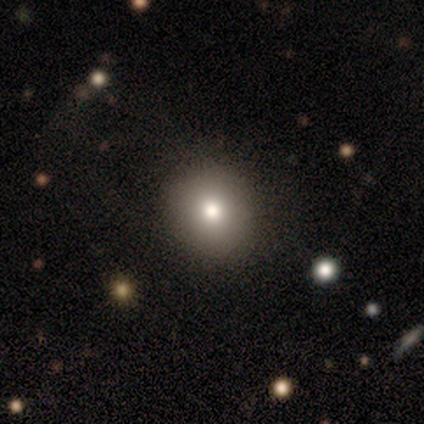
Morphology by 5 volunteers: Smooth or featured? smooth (80%)
How rounded? round (75%)
Merging? none (100%)